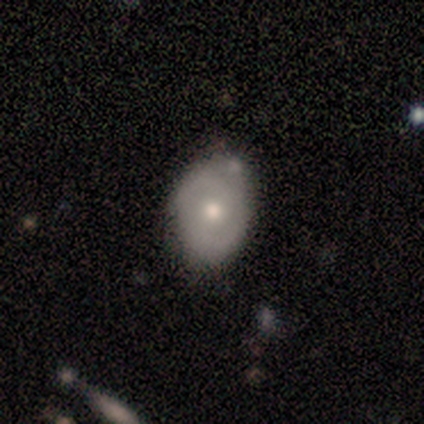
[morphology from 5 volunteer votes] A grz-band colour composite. It shows a smooth galaxy with no disk features (60%) that is in between round and cigar-shaped (100%). Merging: none (80%).